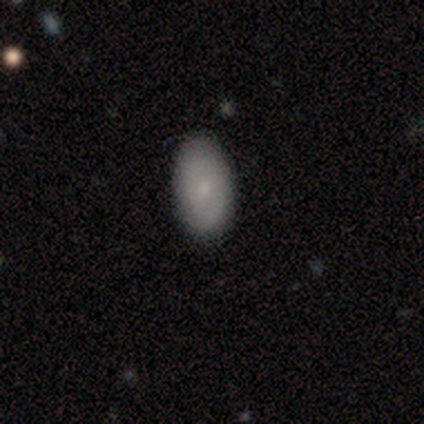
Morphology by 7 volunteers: Smooth or featured? smooth (71%)
How rounded? in between (100%)
Merging? none (86%)